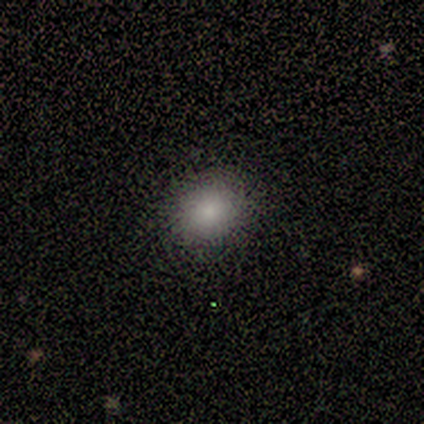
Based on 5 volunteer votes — Smooth or featured? smooth (100%)
How rounded? round (80%)
Merging? none (100%)